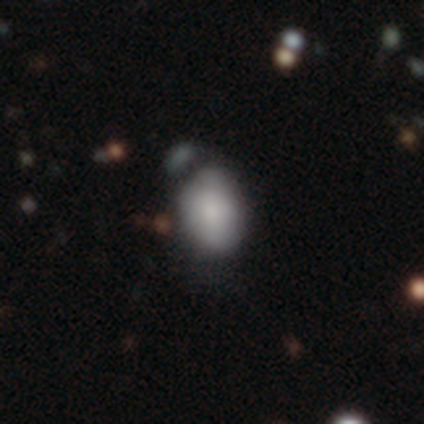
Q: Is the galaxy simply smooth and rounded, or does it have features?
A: smooth — 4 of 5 (80%).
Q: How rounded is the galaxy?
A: in between — 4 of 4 (100%).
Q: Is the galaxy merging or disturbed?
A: none — 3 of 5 (60%).